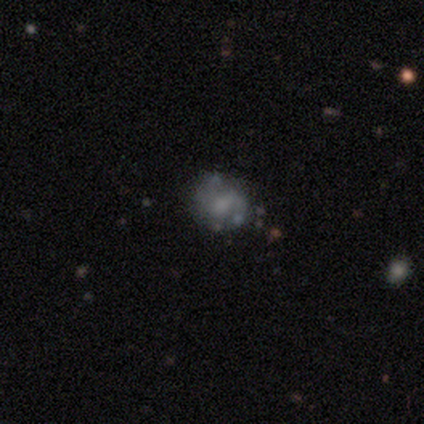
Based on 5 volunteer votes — Overall: featured or disk (60%; smooth 20%). Edge-on disk: no (100%). Bar: no (67%; weak 33%). Spiral arms: yes (67%; no 33%). Spiral arm count: 2 (100%). Spiral winding: medium (50%, tied with loose). Bulge size: moderate (67%; large 33%). Merging: none (50%, tied with minor disturbance).